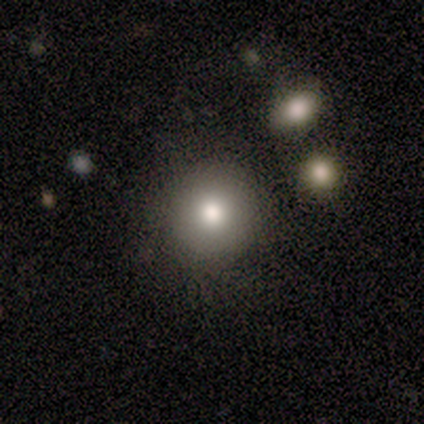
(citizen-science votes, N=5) Q: Smooth or featured?
A: smooth (60%); runner-up: featured or disk (40%)
Q: How rounded?
A: round (100%)
Q: Merging?
A: none (100%)